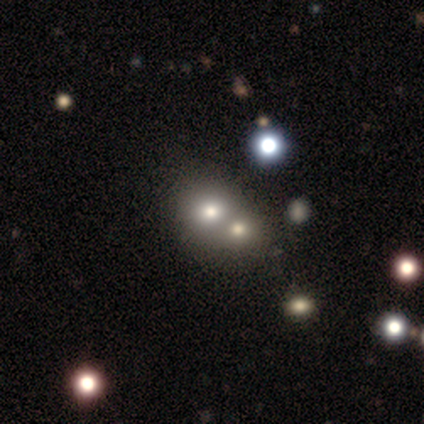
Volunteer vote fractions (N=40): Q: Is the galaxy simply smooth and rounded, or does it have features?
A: smooth — 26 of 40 (65%).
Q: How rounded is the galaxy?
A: round — 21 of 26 (81%).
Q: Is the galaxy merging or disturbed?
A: merger — 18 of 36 (50%).